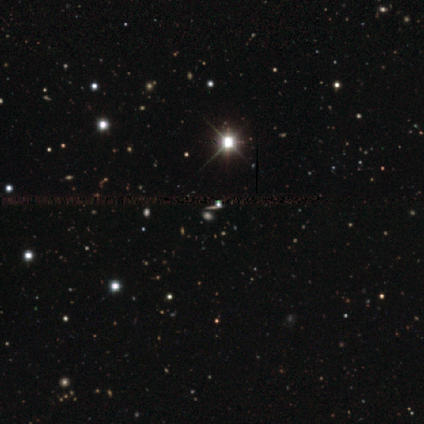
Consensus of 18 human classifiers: This is likely a star or artifact rather than a galaxy (67%).